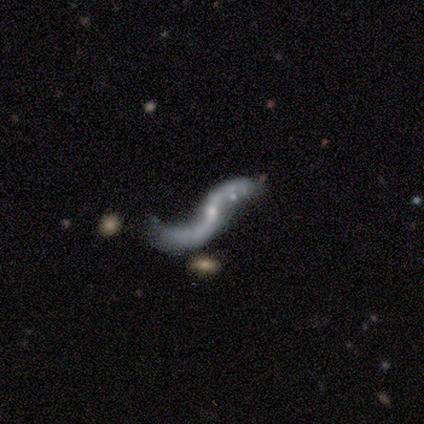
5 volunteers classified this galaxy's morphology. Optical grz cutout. It shows a featured or disk galaxy (100%) with a strong bar (40%, tied with weak), 2 (80%) loose (80%) spiral arms (100%) and a small central bulge (60%). Merging: none (60%).